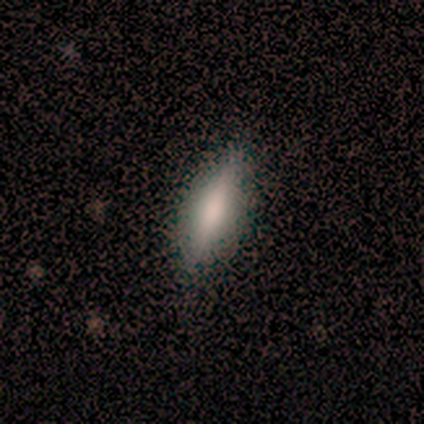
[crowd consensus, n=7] A smooth galaxy with no disk features (57%) that is cigar-shaped (100%). Merging: none (86%).